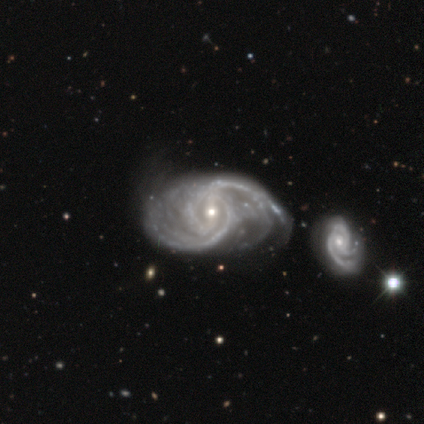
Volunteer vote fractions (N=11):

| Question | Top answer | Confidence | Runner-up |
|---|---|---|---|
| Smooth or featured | featured or disk | 100% | — |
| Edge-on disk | no | 91% | yes (9%) |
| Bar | weak | 80% | strong (20%) |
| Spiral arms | yes | 100% | — |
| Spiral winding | medium | 70% | loose (20%) |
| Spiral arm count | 2 | 60% | 3 (20%) |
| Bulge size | small | 50% | moderate (40%) |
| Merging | minor disturbance | 55% | merger (27%) |